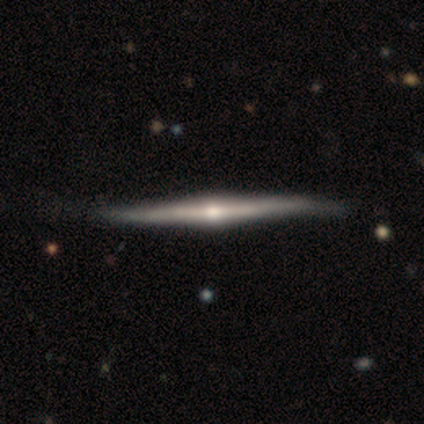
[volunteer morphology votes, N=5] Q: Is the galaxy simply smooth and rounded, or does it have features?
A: featured or disk — 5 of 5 (100%).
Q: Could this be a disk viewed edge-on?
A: yes — 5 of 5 (100%).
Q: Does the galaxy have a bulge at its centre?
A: rounded — 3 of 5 (60%).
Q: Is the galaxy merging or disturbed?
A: none — 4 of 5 (80%).